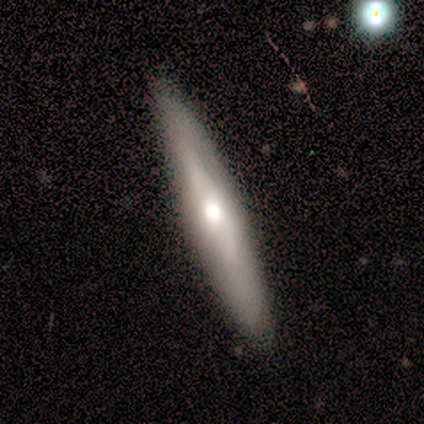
Smooth or featured? 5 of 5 (100%) said featured or disk. Edge-on disk? 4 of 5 (80%) said yes. Edge-on bulge? 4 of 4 (100%) said rounded. Merging? 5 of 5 (100%) said none.